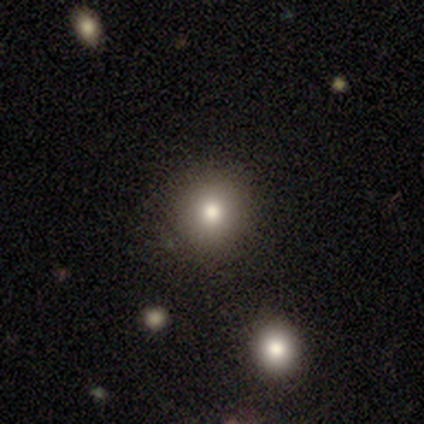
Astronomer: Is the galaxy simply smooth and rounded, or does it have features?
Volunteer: smooth — 100%.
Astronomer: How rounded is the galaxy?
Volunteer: round — 100%.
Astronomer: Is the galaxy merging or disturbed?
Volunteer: none — 100%.